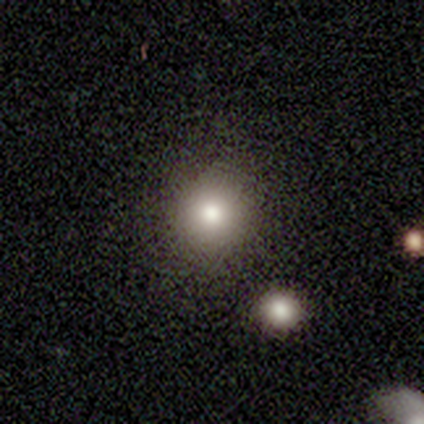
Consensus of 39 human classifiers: This appears to be a smooth galaxy with no disk features (54%) that is round (86%). Merging: none (70%).